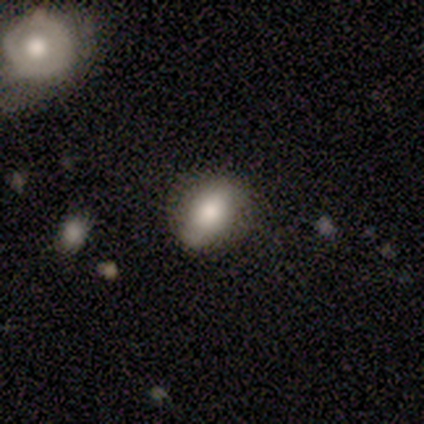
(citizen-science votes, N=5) This appears to be a smooth galaxy with no disk features (100%) that is in between round and cigar-shaped (80%). Merging: none (100%).